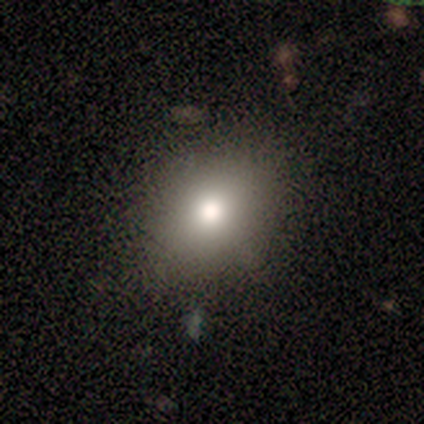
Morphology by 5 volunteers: Smooth or featured: smooth — 80% (featured or disk — 20%)
How rounded: in between — 75% (round — 25%)
Merging: minor disturbance — 60% (none — 40%)